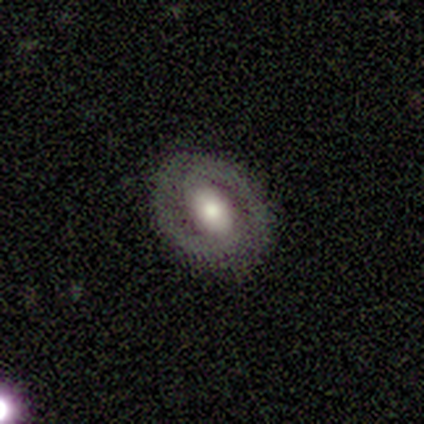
Morphology: type=featured or disk (71%); edge-on=no (97%); bar=no (44%); spiral arms=yes (82%); winding=tight (64%); arm count=2 (93%); bulge=moderate (56%); merging=none (83%).